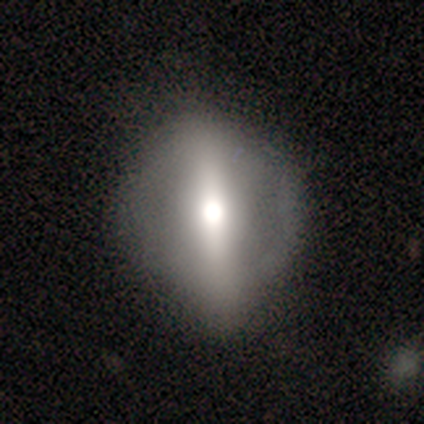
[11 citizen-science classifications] Morphology: type=featured or disk (73%); edge-on=yes (50%, tied with no); edge-on bulge=rounded (100%); merging=none (73%).